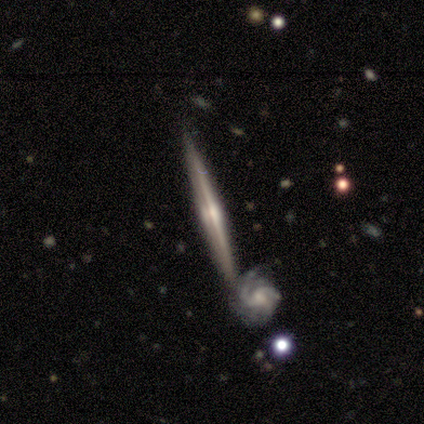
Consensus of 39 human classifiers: smooth-or-featured: featured or disk: 85% | smooth: 13% | star or artifact: 3%
  disk-edge-on: yes: 85% | no: 15%
    edge-on-bulge: rounded: 82% | none: 14% | boxy: 4%
  merging: none: 45% | merger: 42% | minor disturbance: 8% | major disturbance: 5%